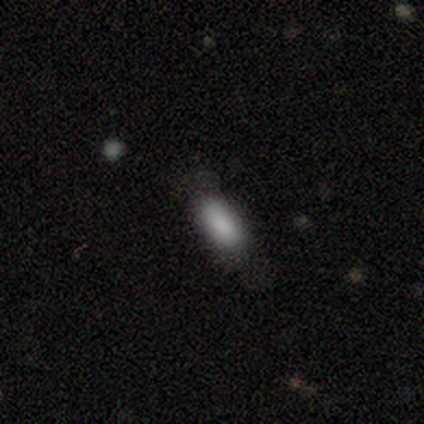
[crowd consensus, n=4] Morphology: type=smooth (100%); roundness=in between (100%); merging=minor disturbance (75%).